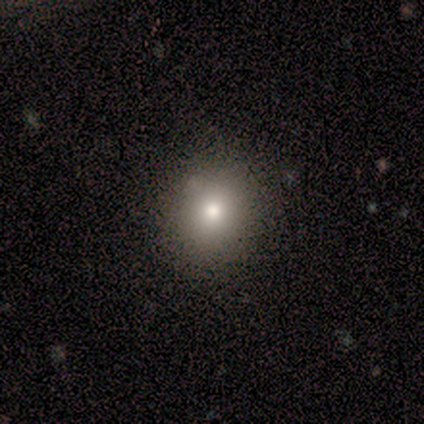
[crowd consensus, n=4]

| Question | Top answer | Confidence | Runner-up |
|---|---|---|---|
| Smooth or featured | smooth | 50% | featured or disk (25%) |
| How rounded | round | 100% | — |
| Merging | none | 100% | — |